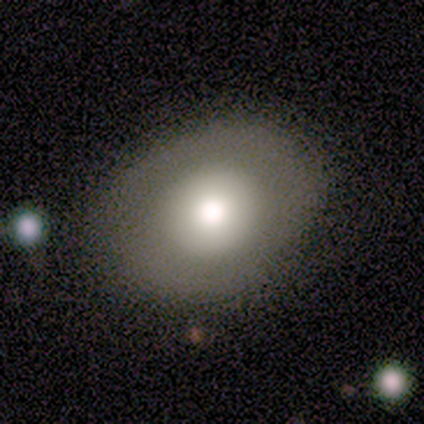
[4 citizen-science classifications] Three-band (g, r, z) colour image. It shows a smooth galaxy with no disk features (50%) that is in between round and cigar-shaped (100%). Merging: none (100%).